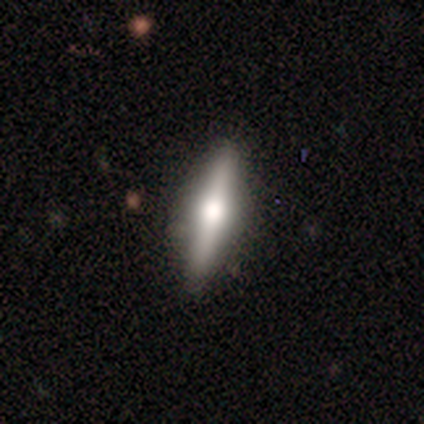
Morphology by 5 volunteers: This appears to be a featured or disk galaxy (80%) viewed edge-on (100%) with a rounded central bulge (75%). Merging: none (80%).